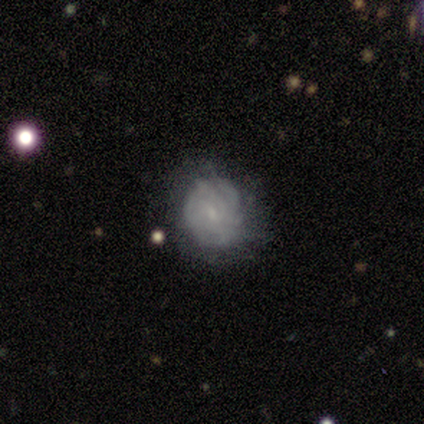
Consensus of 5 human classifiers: Overall: featured or disk (100%). Edge-on disk: no (100%). Bar: no (60%; weak 40%). Spiral arms: yes (80%). Spiral arm count: can't tell (100%). Spiral winding: tight (100%). Bulge size: small (80%). Merging: none (60%; minor disturbance 40%).